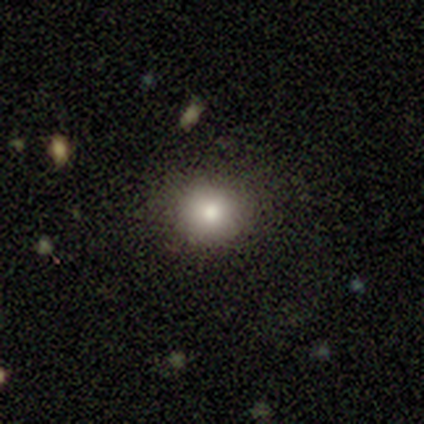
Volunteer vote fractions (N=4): Overall: smooth (75%). How rounded: round (100%). Merging: none (50%, tied with minor disturbance).